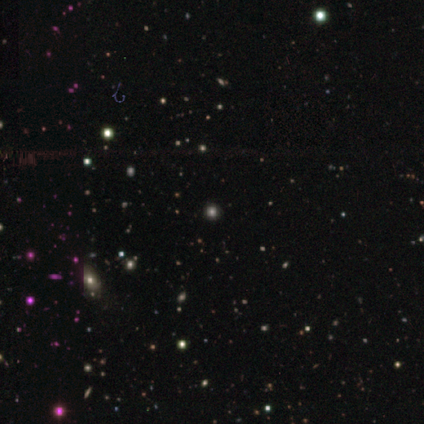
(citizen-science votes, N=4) Overall: smooth (50%; featured or disk 25%). How rounded: round (50%, tied with in between). Merging: none (67%; major disturbance 33%).